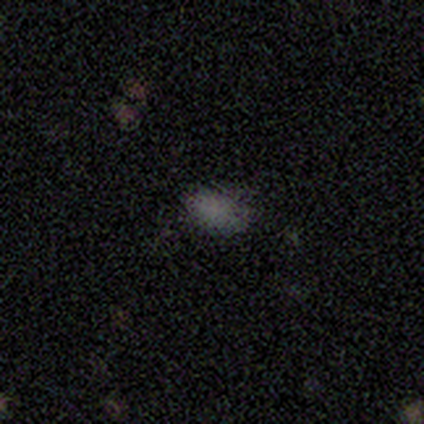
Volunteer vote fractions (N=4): Smooth or featured? 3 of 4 (75%) said smooth. How rounded? 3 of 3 (100%) said in between. Merging? 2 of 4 (50%, tied with minor disturbance) said none.